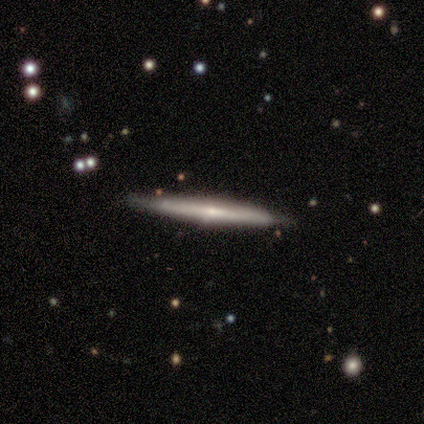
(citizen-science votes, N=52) Q: Smooth or featured?
A: featured or disk (75%); runner-up: smooth (19%)
Q: Edge-on disk?
A: yes (95%); runner-up: no (5%)
Q: Edge-on bulge?
A: rounded (51%); runner-up: none (46%)
Q: Merging?
A: none (86%); runner-up: minor disturbance (12%)